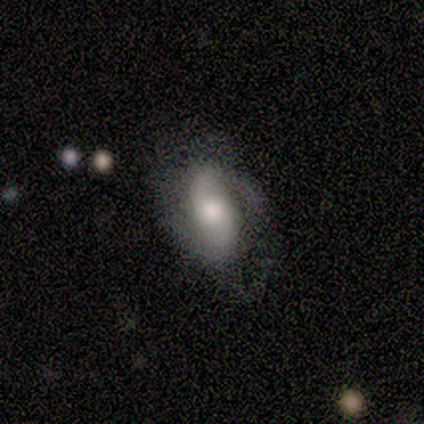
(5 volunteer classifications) Morphology: type=smooth (60%); roundness=in between (100%); merging=minor disturbance (60%).